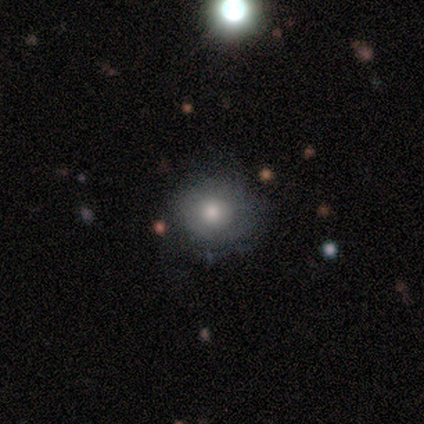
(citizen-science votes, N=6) Q: Smooth or featured?
A: smooth (83%); runner-up: star or artifact (17%)
Q: How rounded?
A: round (80%); runner-up: in between (20%)
Q: Merging?
A: none (80%); runner-up: minor disturbance (20%)